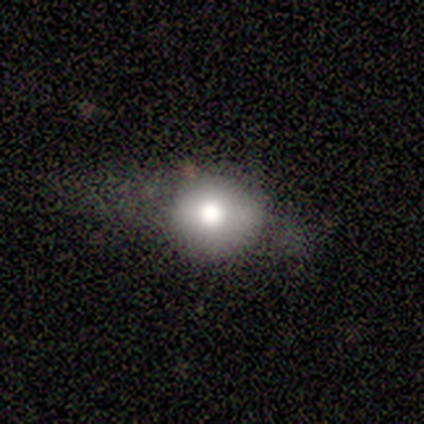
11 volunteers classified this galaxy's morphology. smooth_or_featured: smooth (p=0.64) [alt: featured or disk p=0.27]
how_rounded: round (p=0.71) [alt: in between p=0.29]
merging: none (p=0.50) [alt: major disturbance p=0.40]